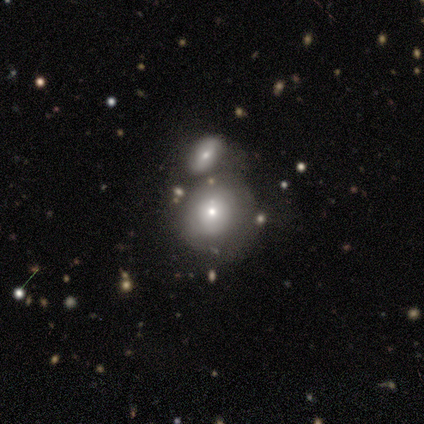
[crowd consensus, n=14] Smooth or featured: smooth — 64% (featured or disk — 29%)
How rounded: round — 100%
Merging: none — 46% (merger — 31%)